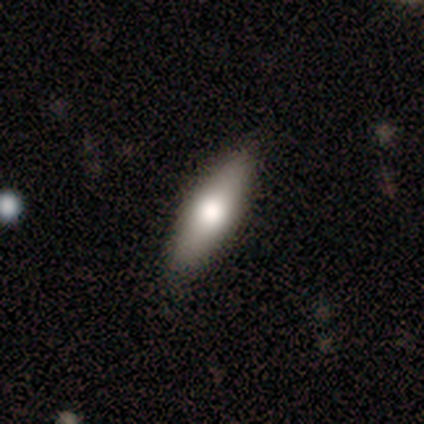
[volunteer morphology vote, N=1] Smooth or featured? 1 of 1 (100%) said smooth. How rounded? 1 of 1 (100%) said cigar-shaped. Merging? 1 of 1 (100%) said none.